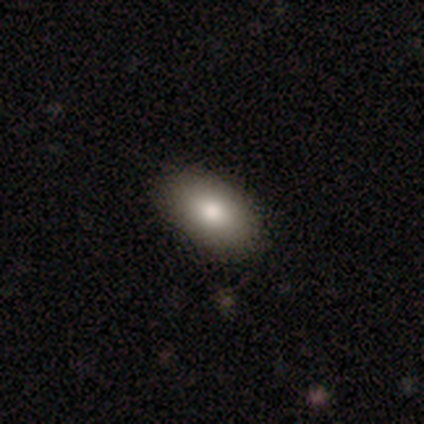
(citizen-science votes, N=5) smooth_or_featured: smooth (p=1.00)
how_rounded: in between (p=1.00)
merging: none (p=1.00)